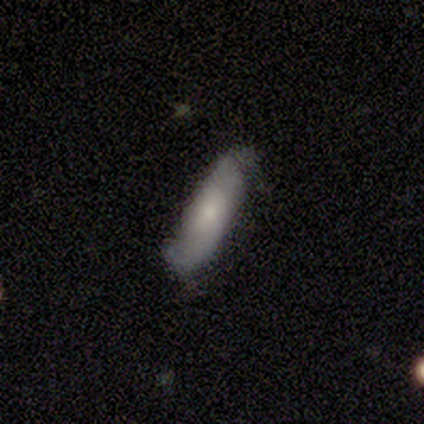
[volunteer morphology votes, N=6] A featured or disk galaxy (67%) with no bar (75%), 2 (100%) medium (100%) spiral arms (50%, tied with no) and a small central bulge (50%).

Vote fractions:
- Smooth or featured? featured or disk: 67% / smooth: 33% / star or artifact: 0%
- Edge-on disk? no: 100% / yes: 0%
- Bar? no: 75% / weak: 25% / strong: 0%
- Spiral arms? yes: 50% (tied) / no: 50% (tied)
- Spiral winding? medium: 100% / tight: 0% / loose: 0%
- Spiral arm count? 2: 100% / 1: 0% / 3: 0% / 4: 0% / more than 4: 0% / can't tell: 0%
- Bulge size? small: 50% / moderate: 25% / none: 25% / dominant: 0% / large: 0%
- Merging? none: 50% / minor disturbance: 33% / major disturbance: 17% / merger: 0%